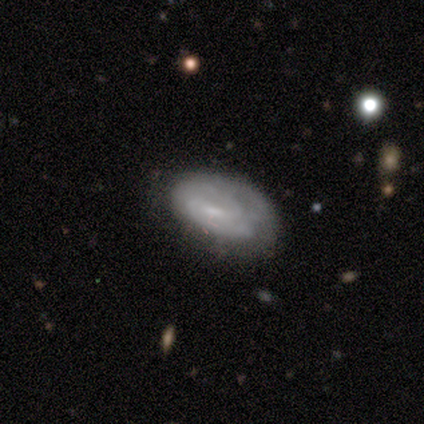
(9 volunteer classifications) Q: Smooth or featured?
A: featured or disk (67%); runner-up: smooth (22%)
Q: Edge-on disk?
A: no (100%)
Q: Bar?
A: weak (50%); runner-up: no (33%)
Q: Spiral arms?
A: yes (67%); runner-up: no (33%)
Q: Spiral winding?
A: medium (50%); tied with: loose (50%)
Q: Spiral arm count?
A: can't tell (50%); runner-up: 1 (25%)
Q: Bulge size?
A: small (67%); runner-up: none (33%)
Q: Merging?
A: minor disturbance (50%); runner-up: none (38%)